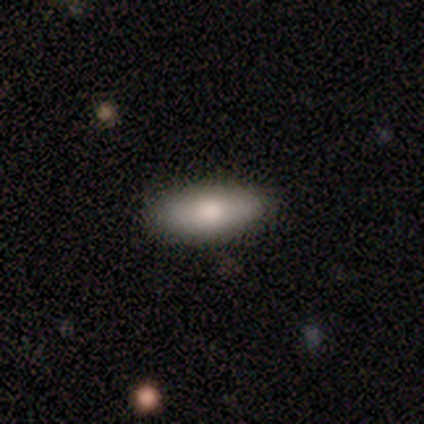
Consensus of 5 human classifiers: Volunteers were most divided on "how rounded": in between: 75%, cigar-shaped: 25%, round: 0%. More confident: smooth or featured — smooth (80%); merging — none (75%).